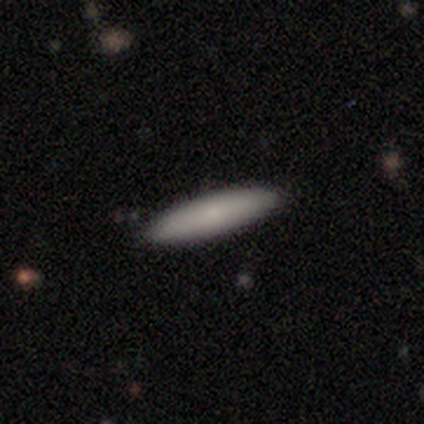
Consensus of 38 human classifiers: A smooth galaxy with no disk features (74%) that is cigar-shaped (82%).

Vote fractions:
- Smooth or featured? smooth: 74% / featured or disk: 16% / star or artifact: 11%
- How rounded? cigar-shaped: 82% / in between: 14% / round: 4%
- Merging? none: 79% / minor disturbance: 15% / major disturbance: 3% / merger: 3%